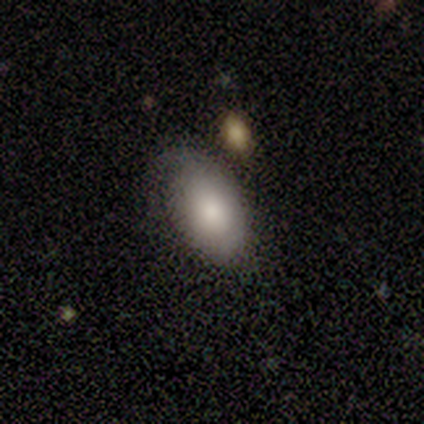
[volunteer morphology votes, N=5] smooth-or-featured: smooth: 100% | featured or disk: 0% | star or artifact: 0%
  how-rounded: in between: 100% | round: 0% | cigar-shaped: 0%
  merging: none: 60% | minor disturbance: 20% | major disturbance: 20% | merger: 0%